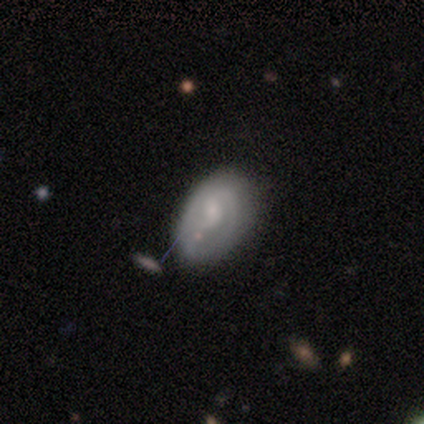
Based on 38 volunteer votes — smooth-or-featured: featured or disk: 74% | smooth: 24% | star or artifact: 3%
  disk-edge-on: no: 100% | yes: 0%
    bar: no: 64% | weak: 36% | strong: 0%
    has-spiral-arms: yes: 64% | no: 36%
      spiral-winding: tight: 44% | medium: 33% | loose: 22%
      spiral-arm-count: 2: 61% | 1: 28% | can't tell: 11% | 3: 0% | 4: 0% | more than 4: 0%
    bulge-size: small: 50% | moderate: 29% | none: 14% | large: 7% | dominant: 0%
  merging: none: 41% | minor disturbance: 27% | major disturbance: 3% | merger: 3%